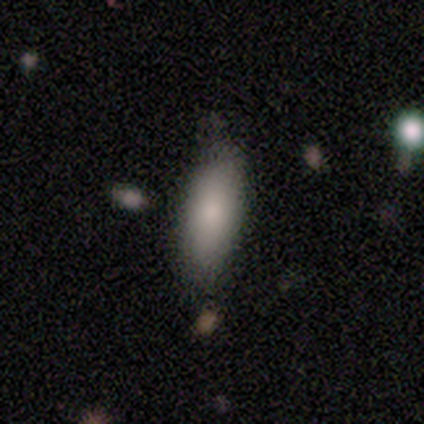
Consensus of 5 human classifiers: Volunteers were most divided on "merging": none: 75%, minor disturbance: 25%, major disturbance: 0%, merger: 0%. More confident: how rounded — in between (100%); smooth or featured — smooth (80%).